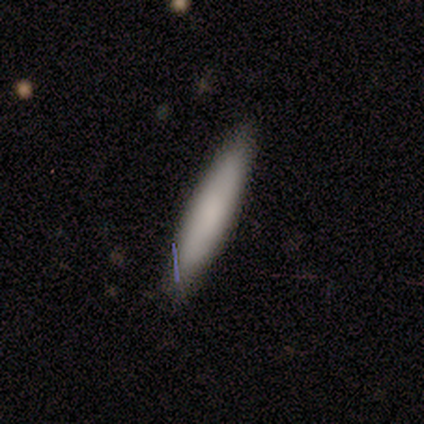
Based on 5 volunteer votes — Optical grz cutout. It shows a smooth galaxy with no disk features (60%) that is cigar-shaped (67%). Merging: none (100%).